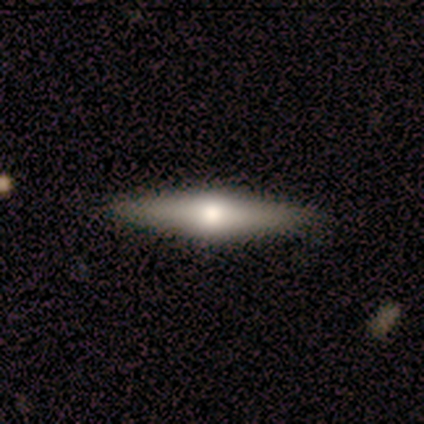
A featured or disk galaxy (60%) viewed edge-on (100%) with a rounded central bulge (100%). Merging: none (100%).